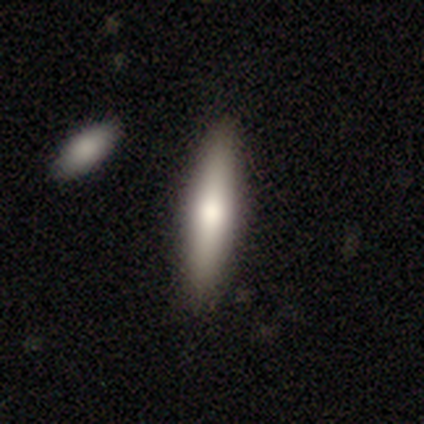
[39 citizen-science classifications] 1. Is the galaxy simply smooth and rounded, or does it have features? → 74% smooth, 26% featured or disk, 0% star or artifact.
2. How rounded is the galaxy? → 86% cigar-shaped, 14% in between, 0% round.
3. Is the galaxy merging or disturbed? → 87% none, 13% minor disturbance, 0% major disturbance, 0% merger.